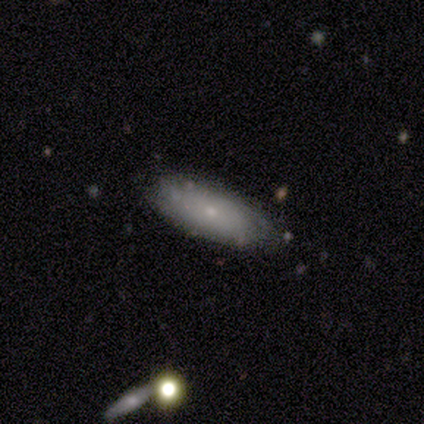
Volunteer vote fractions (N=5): This is likely a smooth galaxy (60%). How rounded: likely in between (67%). Merging: clearly none (100%).